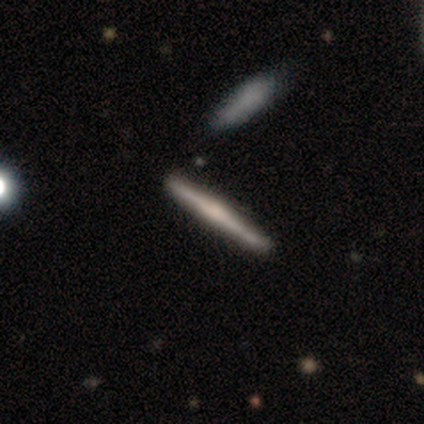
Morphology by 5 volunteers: Smooth or featured?
  - featured or disk: 60% *
  - smooth: 40%
  - star or artifact: 0%
Edge-on disk?
  - yes: 100% *
  - no: 0%
Edge-on bulge?
  - rounded: 100% *
  - boxy: 0%
  - none: 0%
Merging?
  - none: 80% *
  - minor disturbance: 20%
  - major disturbance: 0%
  - merger: 0%